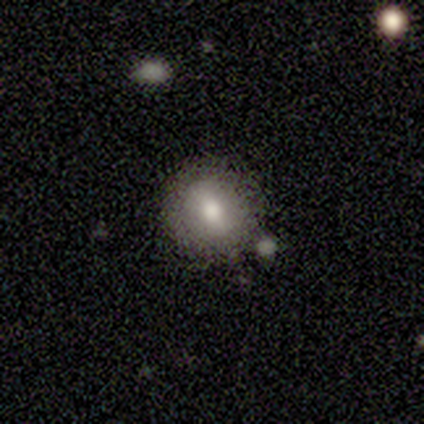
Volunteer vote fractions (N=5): Volunteers were most divided on "how rounded": round: 60%, in between: 40%, cigar-shaped: 0%. More confident: smooth or featured — smooth (100%); merging — none (60%).